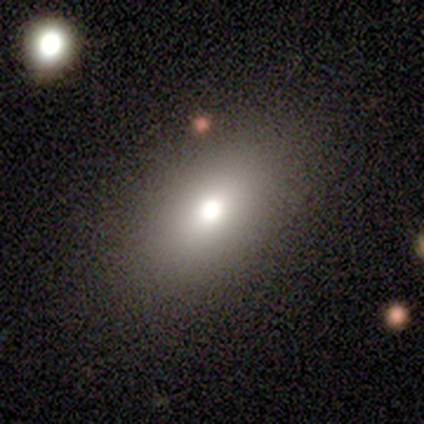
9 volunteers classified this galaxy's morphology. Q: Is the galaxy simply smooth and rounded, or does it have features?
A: smooth — 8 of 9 (89%).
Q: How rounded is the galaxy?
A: in between — 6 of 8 (75%).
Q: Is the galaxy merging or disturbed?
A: none — 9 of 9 (100%).